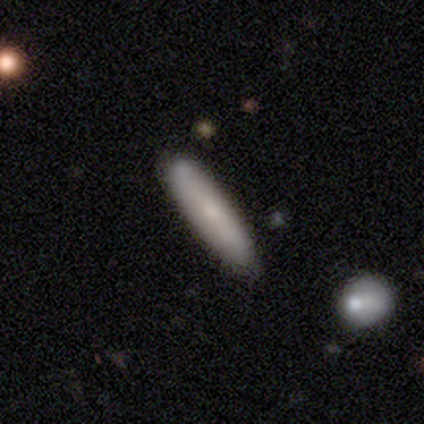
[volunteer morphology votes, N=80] This is likely a smooth galaxy (75%). How rounded: clearly cigar-shaped (80%). Merging: possibly none (49%).